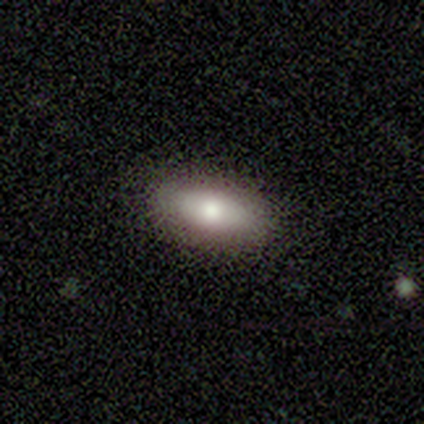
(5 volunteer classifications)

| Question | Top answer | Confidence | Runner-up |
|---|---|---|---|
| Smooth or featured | smooth | 80% | featured or disk (20%) |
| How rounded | in between | 75% | cigar-shaped (25%) |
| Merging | none | 100% | — |